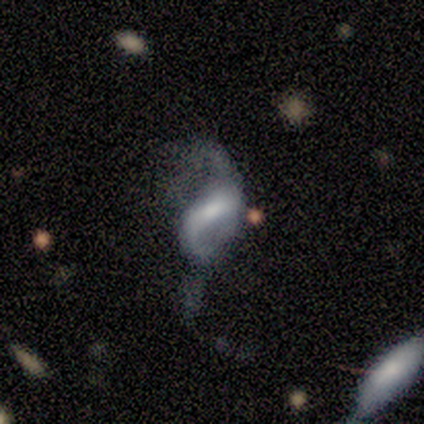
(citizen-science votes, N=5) Smooth or featured? featured or disk (80%)
Edge-on disk? no (100%)
Bar? strong (75%)
Spiral arms? yes (50%, tied with no)
Spiral winding? medium (50%, tied with loose)
Spiral arm count? 2 (100%)
Bulge size? moderate (75%)
Merging? major disturbance (60%)